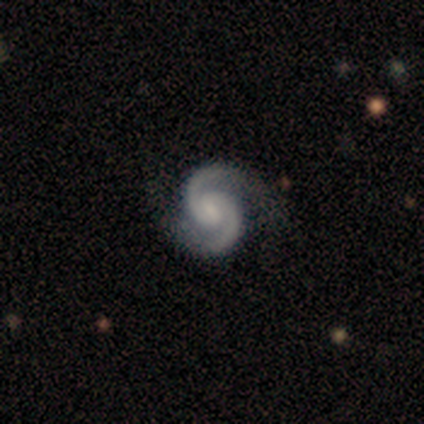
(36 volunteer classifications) Q: Smooth or featured?
A: featured or disk (97%); runner-up: star or artifact (3%)
Q: Edge-on disk?
A: no (100%)
Q: Bar?
A: weak (69%); runner-up: no (20%)
Q: Spiral arms?
A: yes (100%)
Q: Spiral winding?
A: tight (46%); runner-up: medium (43%)
Q: Spiral arm count?
A: 2 (100%)
Q: Bulge size?
A: small (57%); runner-up: moderate (23%)
Q: Merging?
A: none (86%); runner-up: minor disturbance (14%)